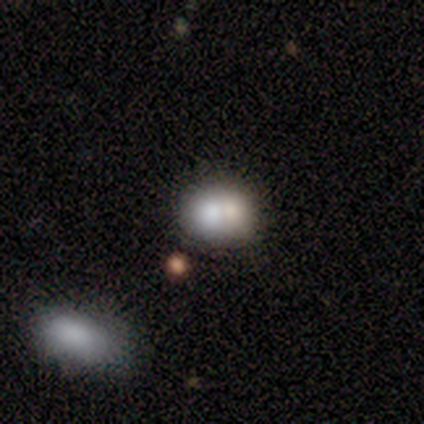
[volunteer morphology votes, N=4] Smooth or featured: smooth — 75% (featured or disk — 25%)
How rounded: in between — 67% (round — 33%)
Merging: minor disturbance — 50% (tied with merger — 50%)